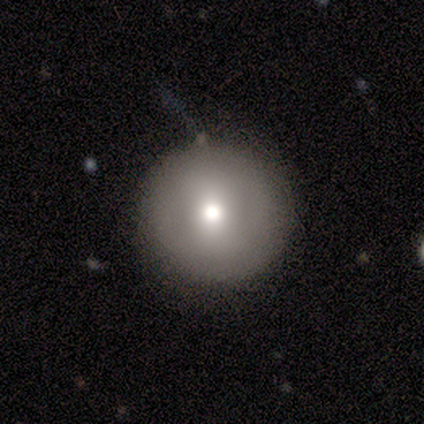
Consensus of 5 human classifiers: smooth 60%, featured or disk 20%, star or artifact 20%. Down the decision tree: how rounded — round (100%); merging — none (75%).